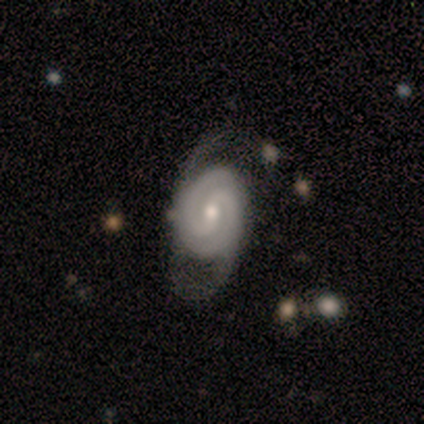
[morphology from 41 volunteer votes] type=featured or disk (95%); edge-on=no (92%); bar=weak (47%); spiral arms=yes (92%); winding=tight (67%); arm count=2 (94%); bulge=small (50%); merging=none (35%).